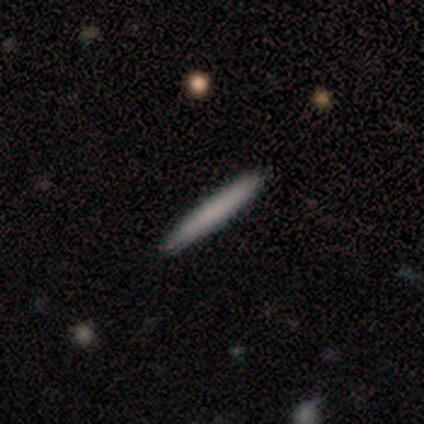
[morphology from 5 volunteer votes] Smooth or featured? smooth (100%)
How rounded? cigar-shaped (100%)
Merging? none (80%)